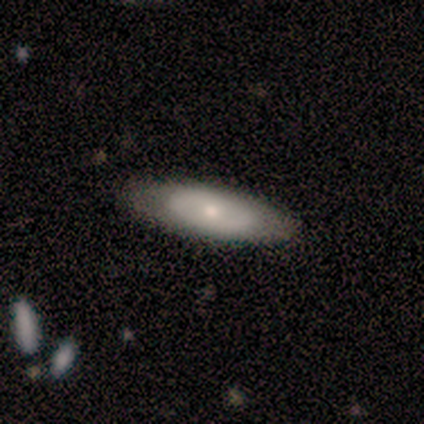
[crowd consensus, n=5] Smooth or featured: featured or disk — 80% (smooth — 20%)
Edge-on disk: no — 100%
Bar: no — 100%
Spiral arms: no — 75% (yes — 25%)
Bulge size: small — 75% (moderate — 25%)
Merging: none — 80% (minor disturbance — 20%)